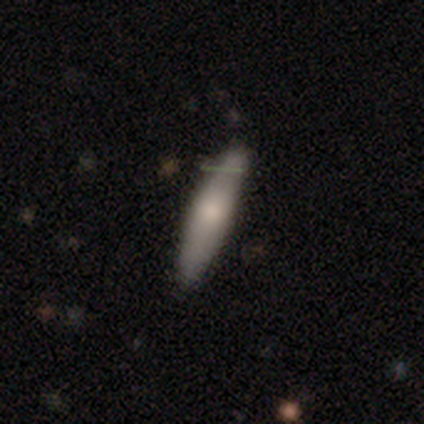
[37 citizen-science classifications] Morphology: type=smooth (70%); roundness=cigar-shaped (85%); merging=none (79%).